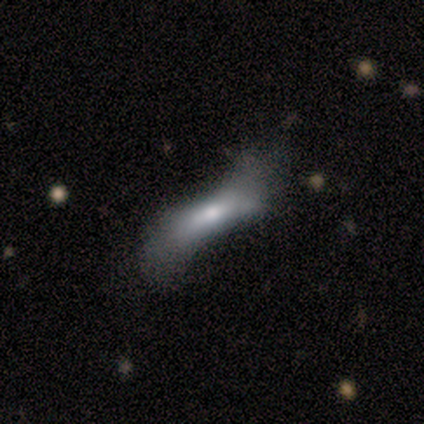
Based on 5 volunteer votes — Q: Smooth or featured?
A: smooth (60%); runner-up: featured or disk (20%)
Q: How rounded?
A: in between (67%); runner-up: cigar-shaped (33%)
Q: Merging?
A: none (50%); runner-up: minor disturbance (25%)